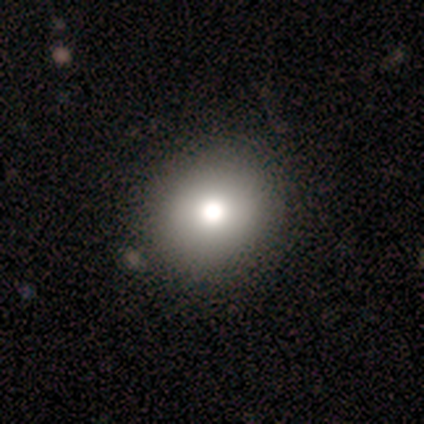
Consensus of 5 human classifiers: smooth-or-featured: smooth: 80% | star or artifact: 20% | featured or disk: 0%
  how-rounded: round: 100% | in between: 0% | cigar-shaped: 0%
  merging: none: 100% | minor disturbance: 0% | major disturbance: 0% | merger: 0%